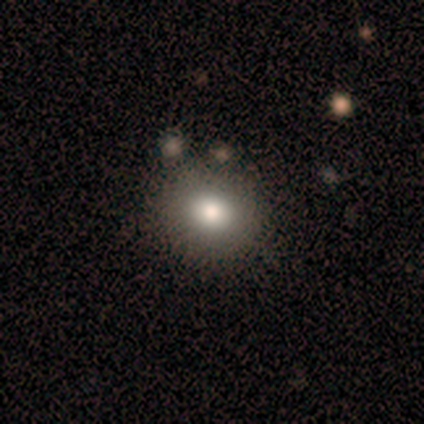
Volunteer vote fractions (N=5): A smooth galaxy with no disk features (80%) that is round (100%). Merging: none (100%).